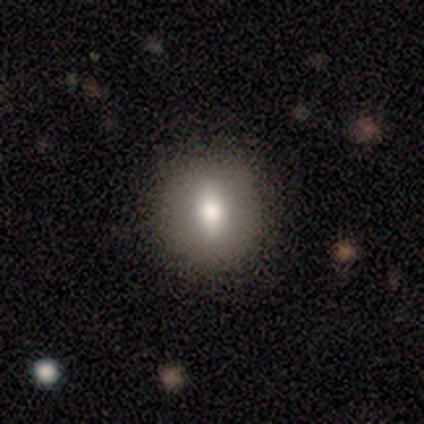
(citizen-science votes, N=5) A smooth galaxy with no disk features (60%) that is round (67%).

Vote fractions:
- Smooth or featured? smooth: 60% / featured or disk: 40% / star or artifact: 0%
- How rounded? round: 67% / in between: 33% / cigar-shaped: 0%
- Merging? none: 100% / minor disturbance: 0% / major disturbance: 0% / merger: 0%